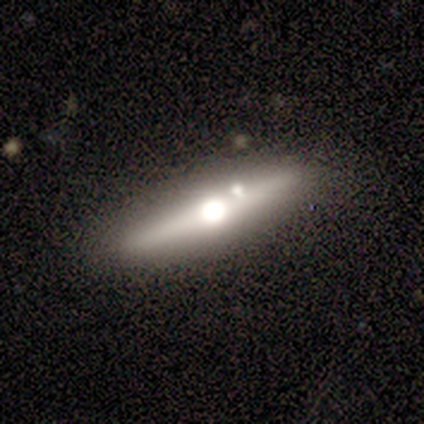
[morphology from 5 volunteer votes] Overall: smooth (40%, tied with featured or disk). How rounded: cigar-shaped (100%). Merging: none (75%).